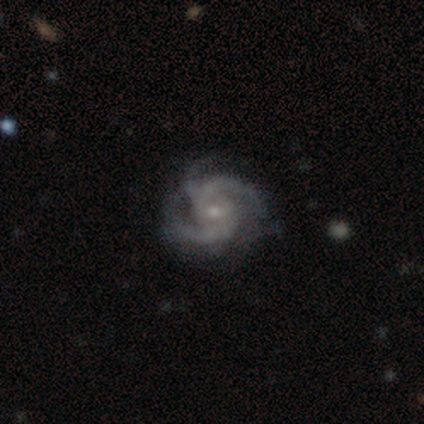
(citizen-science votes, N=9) smooth-or-featured: featured or disk: 100% | smooth: 0% | star or artifact: 0%
  disk-edge-on: no: 89% | yes: 11%
    bar: no: 50% | weak: 38% | strong: 12%
    has-spiral-arms: yes: 100% | no: 0%
      spiral-winding: tight: 50% (tied) | medium: 50% (tied) | loose: 0%
      spiral-arm-count: 3: 38% | 2: 25% | can't tell: 25% | 4: 12% | 1: 0% | more than 4: 0%
    bulge-size: small: 75% | moderate: 25% | dominant: 0% | large: 0% | none: 0%
  merging: none: 67% | minor disturbance: 33% | major disturbance: 0% | merger: 0%